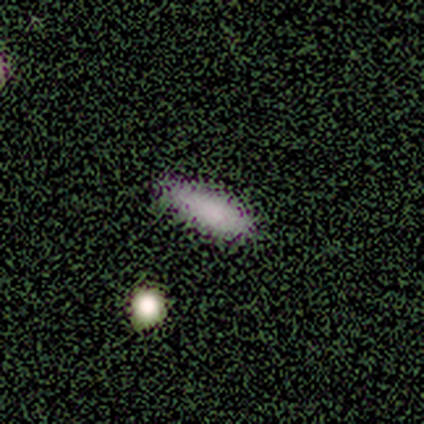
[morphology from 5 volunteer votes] type=smooth (100%); roundness=in between (40%, tied with cigar-shaped); merging=none (100%).